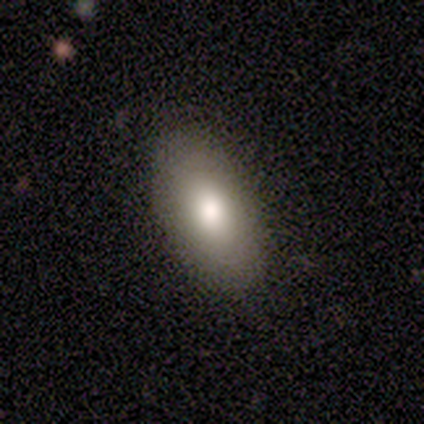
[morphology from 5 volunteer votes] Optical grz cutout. It shows a smooth galaxy with no disk features (80%) that is in between round and cigar-shaped (100%). Merging: none (100%).